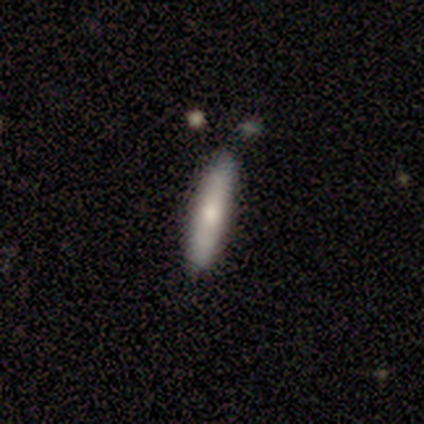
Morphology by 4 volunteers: smooth_or_featured: smooth (p=0.75) [alt: featured or disk p=0.25]
how_rounded: cigar-shaped (p=1.00)
merging: none (p=0.75) [alt: minor disturbance p=0.25]